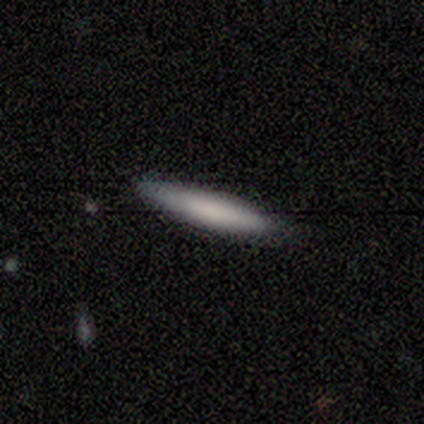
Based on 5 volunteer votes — Smooth or featured? 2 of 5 (40%, tied with featured or disk) said smooth. How rounded? 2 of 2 (100%) said cigar-shaped. Merging? 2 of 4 (50%, tied with minor disturbance) said none.